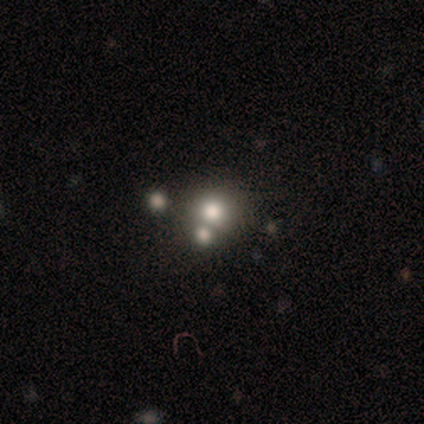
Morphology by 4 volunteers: smooth_or_featured: smooth (p=0.50) [tied with: star or artifact p=0.50]
how_rounded: round (p=1.00)
merging: merger (p=1.00)